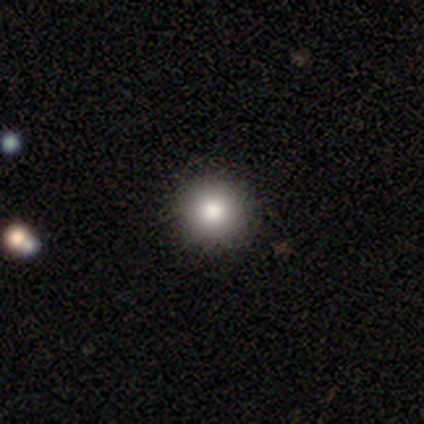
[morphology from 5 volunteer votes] Smooth or featured?
  - smooth: 80% *
  - featured or disk: 20%
  - star or artifact: 0%
How rounded?
  - round: 100% *
  - in between: 0%
  - cigar-shaped: 0%
Merging?
  - none: 80% *
  - minor disturbance: 20%
  - major disturbance: 0%
  - merger: 0%